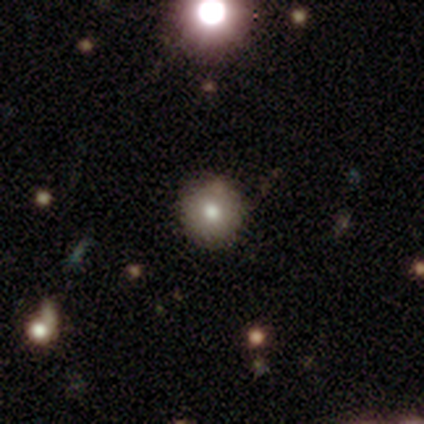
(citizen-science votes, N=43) This appears to be a smooth galaxy with no disk features (74%) that is round (97%). Merging: none (84%).